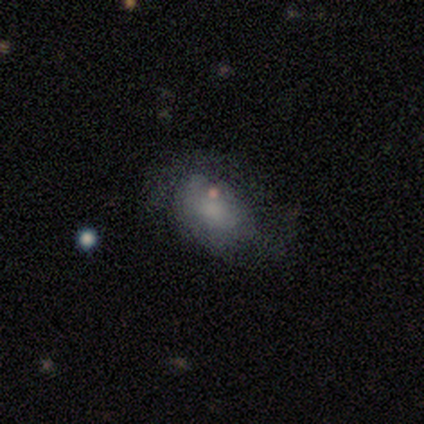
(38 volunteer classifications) Morphology: type=smooth (68%); roundness=in between (92%); merging=none (49%).